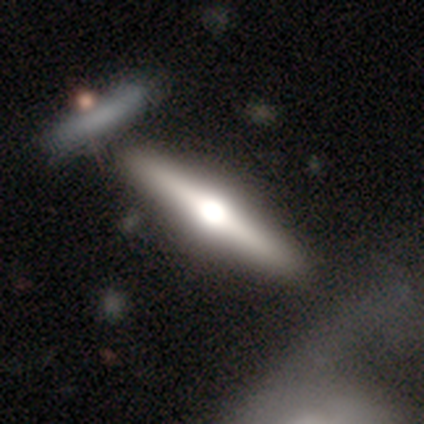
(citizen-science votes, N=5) This is clearly a featured or disk galaxy (80%). It is clearly viewed edge-on (100%). Edge-on bulge: clearly rounded (100%). Merging: likely none (60%).